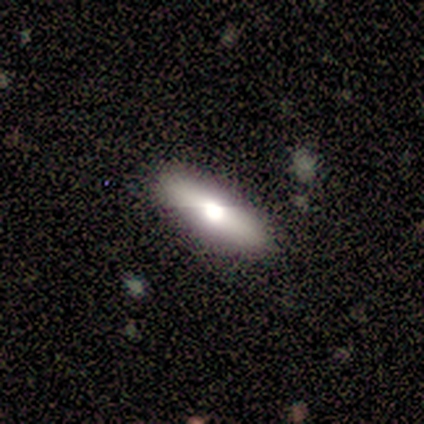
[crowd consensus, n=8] smooth_or_featured: smooth (p=0.88) [alt: featured or disk p=0.12]
how_rounded: cigar-shaped (p=0.57) [alt: in between p=0.43]
merging: none (p=1.00)